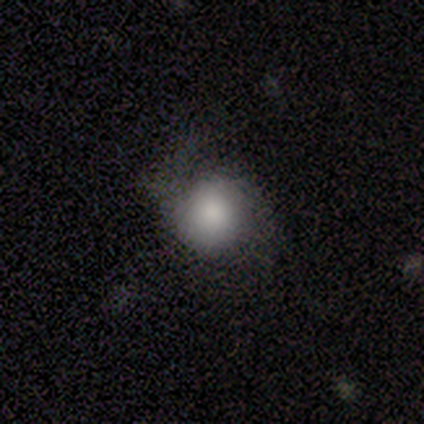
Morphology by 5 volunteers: Volunteers were most divided on "how rounded": round: 75%, in between: 25%, cigar-shaped: 0%. More confident: smooth or featured — smooth (80%); merging — minor disturbance (80%).